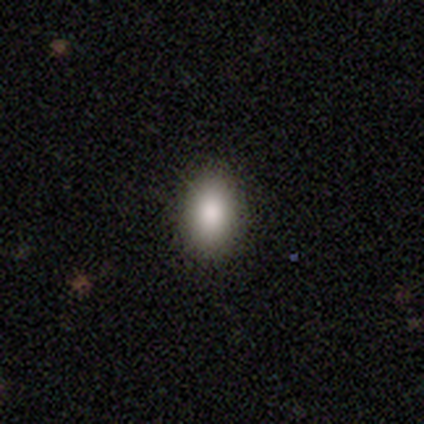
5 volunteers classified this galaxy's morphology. Smooth or featured? 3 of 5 (60%) said smooth. How rounded? 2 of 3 (67%) said in between. Merging? 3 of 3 (100%) said none.